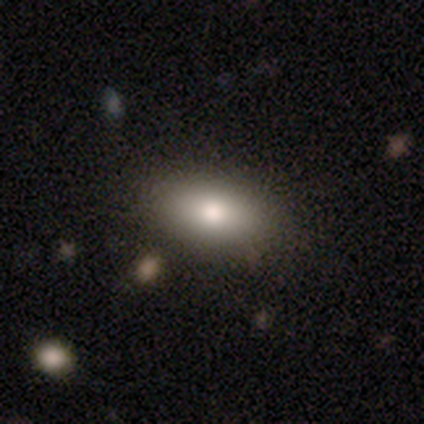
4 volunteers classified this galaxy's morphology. smooth_or_featured: smooth (p=0.75) [alt: featured or disk p=0.25]
how_rounded: in between (p=1.00)
merging: none (p=1.00)